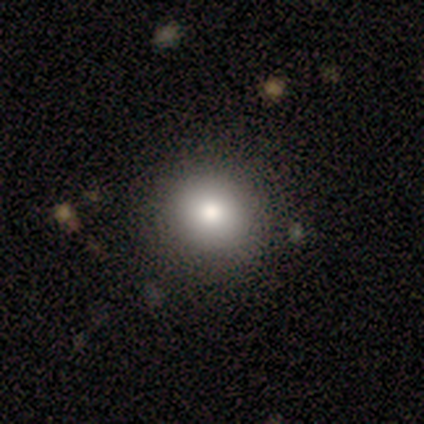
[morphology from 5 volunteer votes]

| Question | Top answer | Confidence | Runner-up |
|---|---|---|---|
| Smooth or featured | smooth | 100% | — |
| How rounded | round | 100% | — |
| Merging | none | 100% | — |